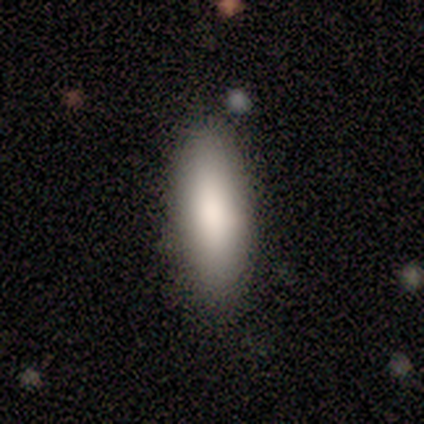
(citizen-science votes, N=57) Q: Smooth or featured?
A: smooth (93%); runner-up: featured or disk (4%)
Q: How rounded?
A: in between (75%); runner-up: cigar-shaped (25%)
Q: Merging?
A: none (87%); runner-up: merger (7%)